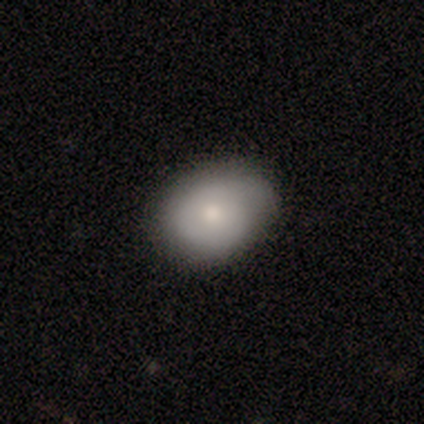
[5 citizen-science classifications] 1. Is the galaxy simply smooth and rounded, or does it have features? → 100% smooth, 0% featured or disk, 0% star or artifact.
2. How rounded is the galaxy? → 60% in between, 40% round, 0% cigar-shaped.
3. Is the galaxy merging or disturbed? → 80% none, 20% minor disturbance, 0% major disturbance, 0% merger.